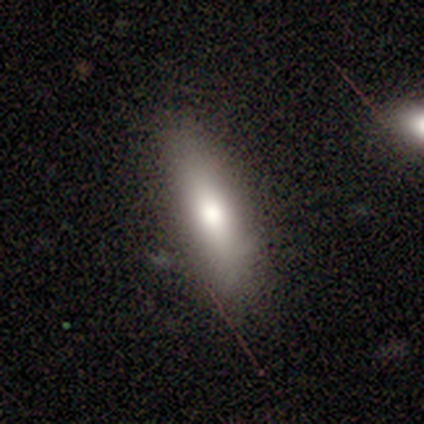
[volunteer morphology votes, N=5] A smooth galaxy with no disk features (100%) that is in between round and cigar-shaped (60%). Merging: none (100%).